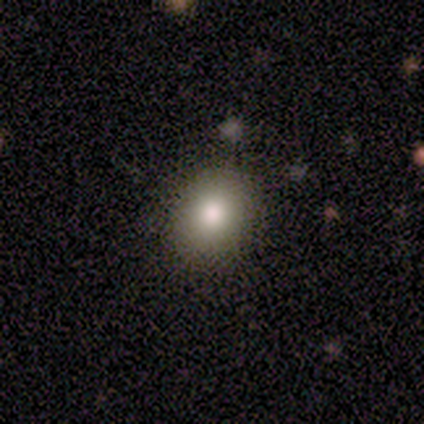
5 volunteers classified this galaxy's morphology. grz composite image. It shows a smooth galaxy with no disk features (60%) that is round (100%). Merging: none (100%).